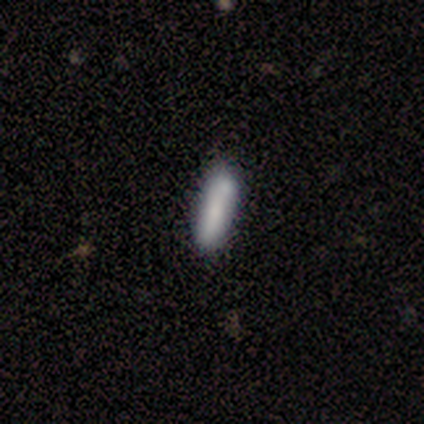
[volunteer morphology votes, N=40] This appears to be a smooth galaxy with no disk features (78%) that is cigar-shaped (65%). Merging: none (57%).